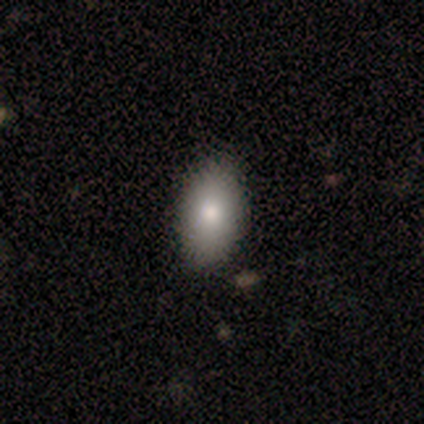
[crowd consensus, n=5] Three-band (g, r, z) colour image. It shows a smooth galaxy with no disk features (100%) that is in between round and cigar-shaped (80%). Merging: none (80%).